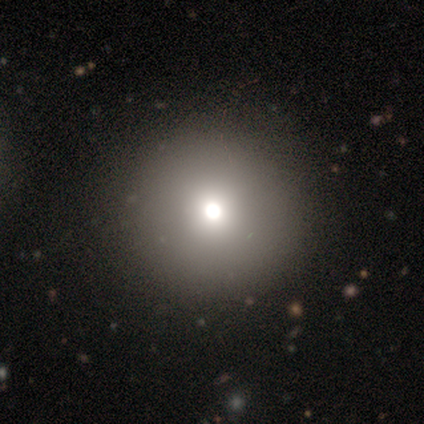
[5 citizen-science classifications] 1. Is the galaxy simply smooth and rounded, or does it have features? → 80% smooth, 20% featured or disk, 0% star or artifact.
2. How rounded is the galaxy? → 100% round, 0% in between, 0% cigar-shaped.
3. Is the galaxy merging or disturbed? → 100% none, 0% minor disturbance, 0% major disturbance, 0% merger.